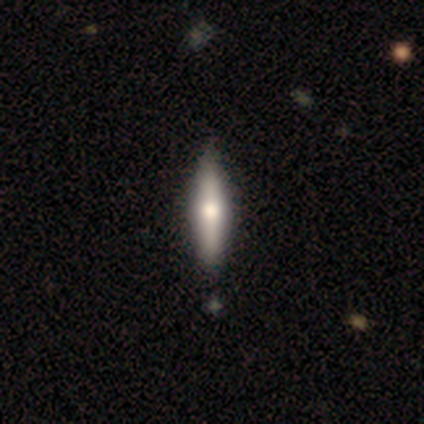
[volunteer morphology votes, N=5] Volunteers were most divided on "edge-on bulge": rounded: 80%, none: 20%, boxy: 0%. More confident: smooth or featured — featured or disk (100%); edge-on disk — yes (100%); merging — none (100%).